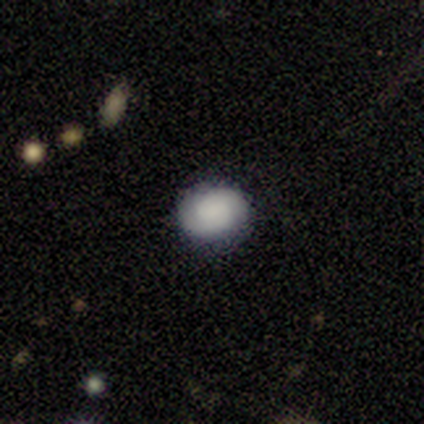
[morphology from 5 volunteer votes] This appears to be a smooth galaxy with no disk features (60%) that is in between round and cigar-shaped (67%). Merging: none (60%).